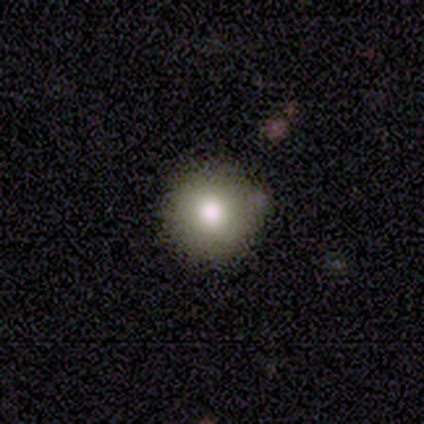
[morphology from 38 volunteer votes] Smooth or featured: smooth — 87% (star or artifact — 11%)
How rounded: round — 97% (in between — 3%)
Merging: none — 88% (minor disturbance — 12%)